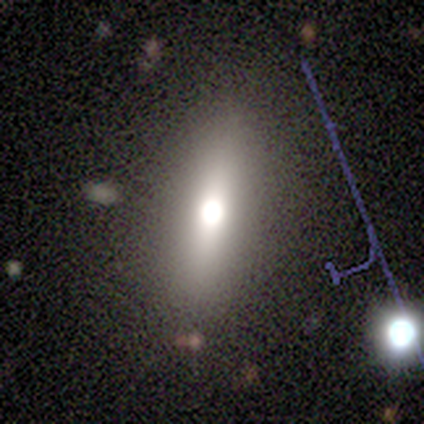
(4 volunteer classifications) smooth-or-featured: smooth: 50% (tied) | star or artifact: 50% (tied) | featured or disk: 0%
  how-rounded: in between: 100% | round: 0% | cigar-shaped: 0%
  merging: none: 100% | minor disturbance: 0% | major disturbance: 0% | merger: 0%